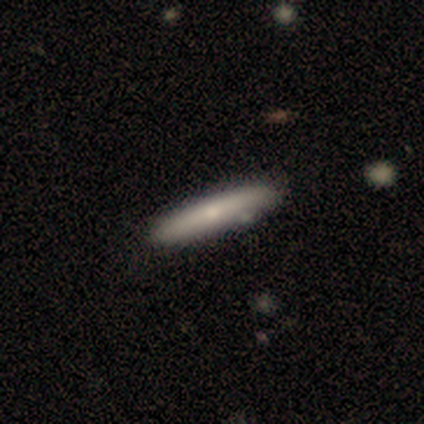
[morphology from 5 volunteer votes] type=smooth (60%); roundness=cigar-shaped (67%); merging=none (80%).